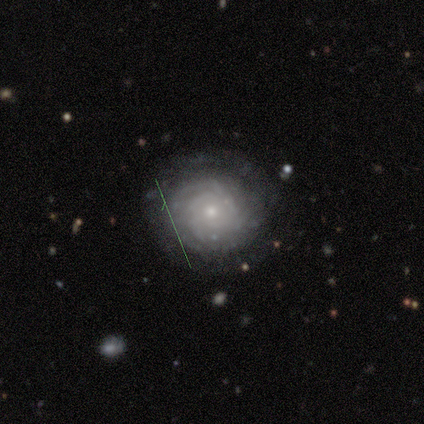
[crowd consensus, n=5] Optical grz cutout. It shows a featured or disk galaxy (100%) with no bar (60%), 2 (40%) tight (80%) spiral arms (100%) and a small central bulge (100%). Merging: none (80%).